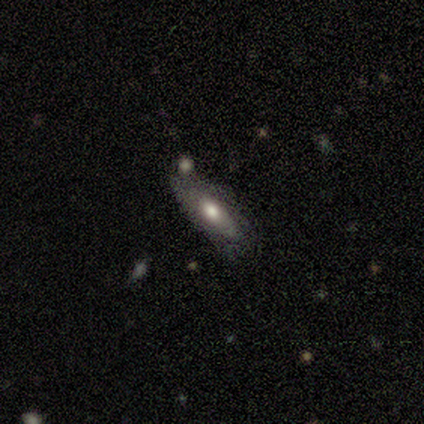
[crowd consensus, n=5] Morphology: type=smooth (100%); roundness=in between (80%); merging=none (60%).